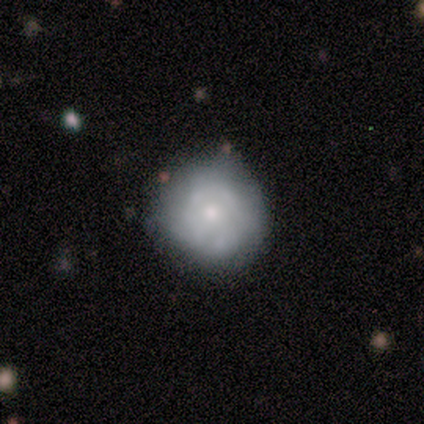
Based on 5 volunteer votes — A featured or disk galaxy (60%) with no bar (100%), tight (50%, tied with medium) spiral arms (67%) and a moderate central bulge (67%).

Vote fractions:
- Smooth or featured? featured or disk: 60% / smooth: 40% / star or artifact: 0%
- Edge-on disk? no: 100% / yes: 0%
- Bar? no: 100% / strong: 0% / weak: 0%
- Spiral arms? yes: 67% / no: 33%
- Spiral winding? tight: 50% (tied) / medium: 50% (tied) / loose: 0%
- Spiral arm count? can't tell: 100% / 1: 0% / 2: 0% / 3: 0% / 4: 0% / more than 4: 0%
- Bulge size? moderate: 67% / small: 33% / dominant: 0% / large: 0% / none: 0%
- Merging? none: 100% / minor disturbance: 0% / major disturbance: 0% / merger: 0%